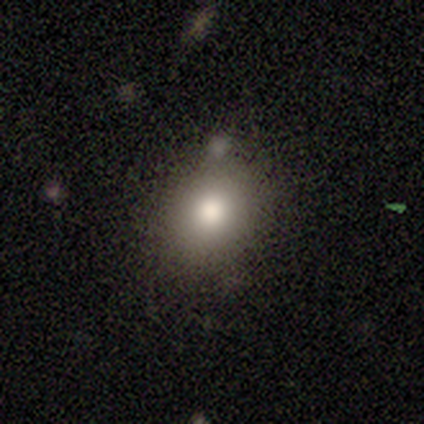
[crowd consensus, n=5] smooth_or_featured: smooth (p=0.80) [alt: star or artifact p=0.20]
how_rounded: round (p=0.50) [tied with: in between p=0.50]
merging: none (p=0.75) [alt: minor disturbance p=0.25]